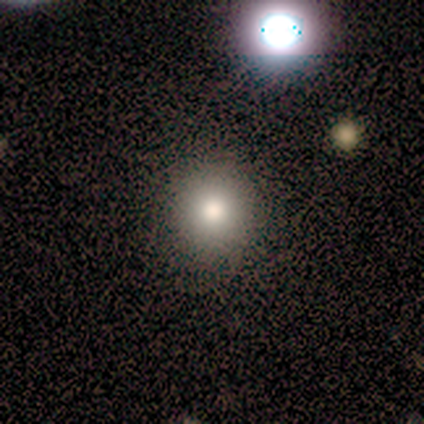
smooth-or-featured: smooth: 60% | featured or disk: 20% | star or artifact: 20%
  how-rounded: round: 100% | in between: 0% | cigar-shaped: 0%
  merging: none: 100% | minor disturbance: 0% | major disturbance: 0% | merger: 0%